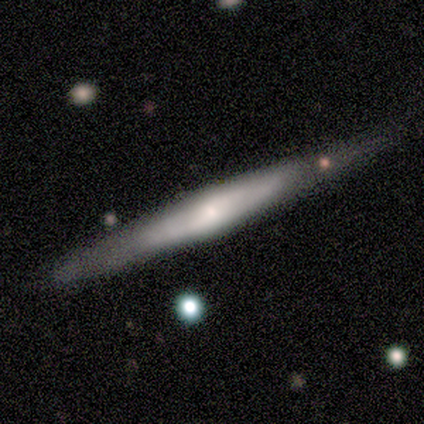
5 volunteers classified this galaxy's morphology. featured or disk 60%, smooth 40%, star or artifact 0%. Down the decision tree: edge-on disk — yes (100%); edge-on bulge — rounded (67%); merging — none (100%).